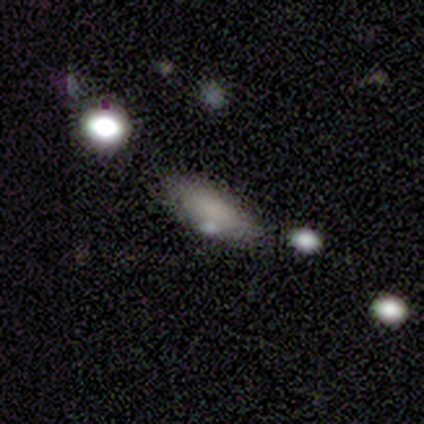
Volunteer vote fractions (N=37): Smooth or featured?
  - smooth: 68% *
  - featured or disk: 22%
  - star or artifact: 11%
How rounded?
  - in between: 68% *
  - cigar-shaped: 28%
  - round: 4%
Merging?
  - none: 61% *
  - minor disturbance: 27%
  - major disturbance: 6%
  - merger: 6%